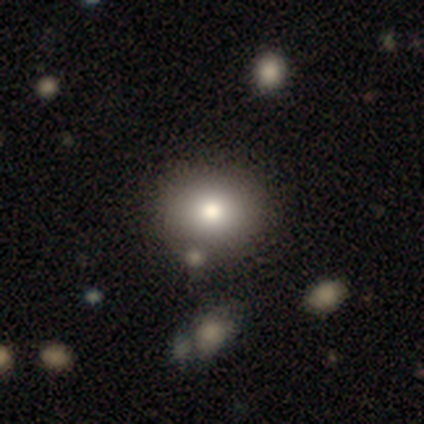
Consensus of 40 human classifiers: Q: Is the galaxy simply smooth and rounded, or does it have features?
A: smooth — 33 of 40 (82%).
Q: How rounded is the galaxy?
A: round — 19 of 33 (58%).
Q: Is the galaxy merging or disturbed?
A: none — 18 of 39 (46%).